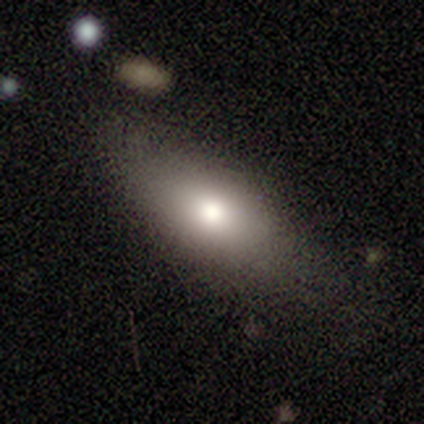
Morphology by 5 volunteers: Smooth or featured: smooth — 60% (featured or disk — 40%)
How rounded: in between — 67% (cigar-shaped — 33%)
Merging: none — 80% (major disturbance — 20%)